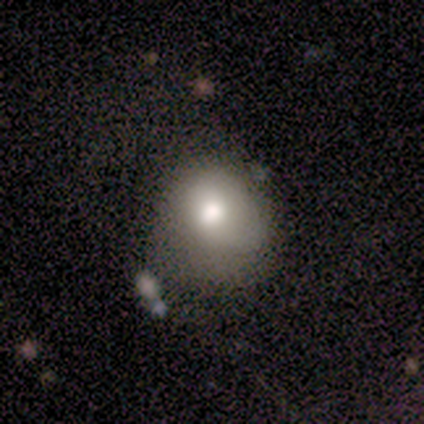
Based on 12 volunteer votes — A smooth galaxy with no disk features (67%) that is round (62%). Merging: major disturbance (40%).